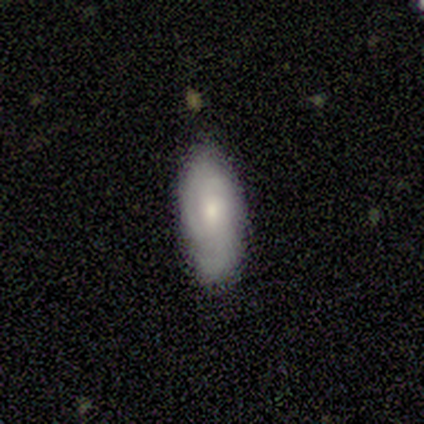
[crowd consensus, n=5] Smooth or featured?
  - featured or disk: 60% *
  - smooth: 20%
  - star or artifact: 20%
Edge-on disk?
  - no: 100% *
  - yes: 0%
Bar?
  - no: 100% *
  - strong: 0%
  - weak: 0%
Spiral arms?
  - yes: 100% *
  - no: 0%
Spiral winding?
  - tight: 33% * (tied)
  - medium: 33% * (tied)
  - loose: 33% * (tied)
Spiral arm count?
  - 3: 67% *
  - can't tell: 33%
  - 1: 0%
  - 2: 0%
  - 4: 0%
  - more than 4: 0%
Bulge size?
  - moderate: 67% *
  - small: 33%
  - dominant: 0%
  - large: 0%
  - none: 0%
Merging?
  - none: 100% *
  - minor disturbance: 0%
  - major disturbance: 0%
  - merger: 0%